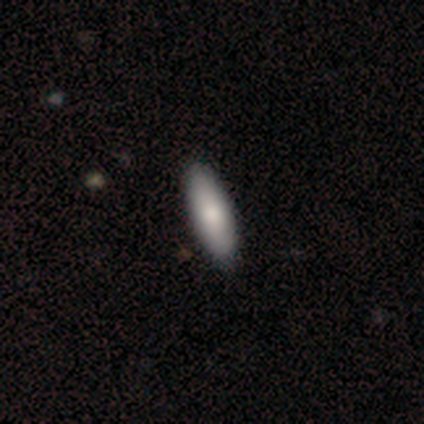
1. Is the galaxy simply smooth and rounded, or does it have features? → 67% smooth, 33% star or artifact, 0% featured or disk.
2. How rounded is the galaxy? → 50% in between (tied), 50% cigar-shaped (tied), 0% round.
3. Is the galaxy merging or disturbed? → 100% none, 0% minor disturbance, 0% major disturbance, 0% merger.